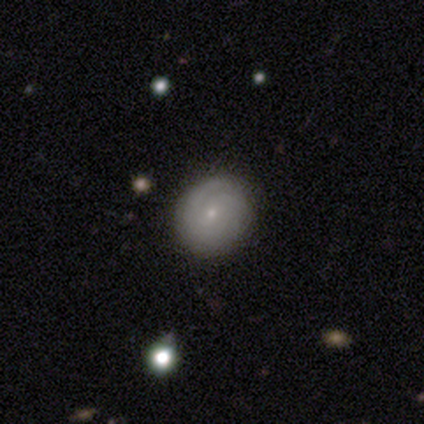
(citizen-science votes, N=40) Smooth or featured: featured or disk — 52% (smooth — 38%)
Edge-on disk: no — 95% (yes — 5%)
Bar: no — 80% (weak — 20%)
Spiral arms: yes — 80% (no — 20%)
Spiral winding: tight — 69% (medium — 25%)
Spiral arm count: can't tell — 44% (2 — 19%)
Bulge size: small — 80% (moderate — 15%)
Merging: none — 86% (minor disturbance — 8%)